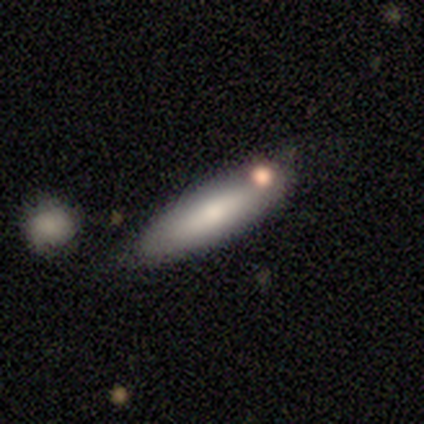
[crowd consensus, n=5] Smooth or featured?
  - smooth: 100% *
  - featured or disk: 0%
  - star or artifact: 0%
How rounded?
  - cigar-shaped: 80% *
  - in between: 20%
  - round: 0%
Merging?
  - none: 60% *
  - minor disturbance: 20%
  - major disturbance: 20%
  - merger: 0%